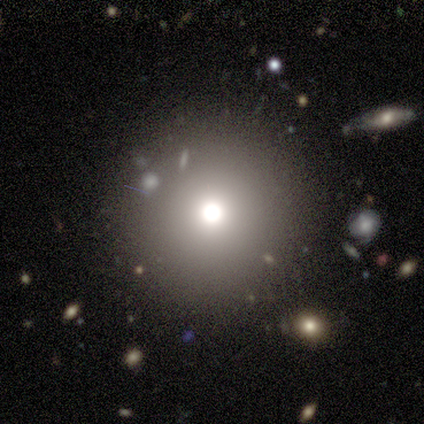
Smooth or featured?
  - smooth: 75% *
  - featured or disk: 25%
  - star or artifact: 0%
How rounded?
  - round: 100% *
  - in between: 0%
  - cigar-shaped: 0%
Merging?
  - none: 75% *
  - major disturbance: 25%
  - minor disturbance: 0%
  - merger: 0%